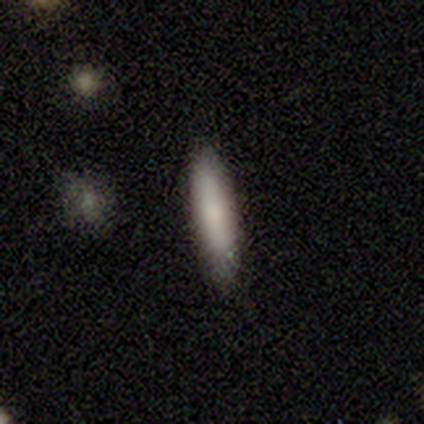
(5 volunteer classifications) Smooth or featured? 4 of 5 (80%) said smooth. How rounded? 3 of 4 (75%) said cigar-shaped. Merging? 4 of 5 (80%) said none.